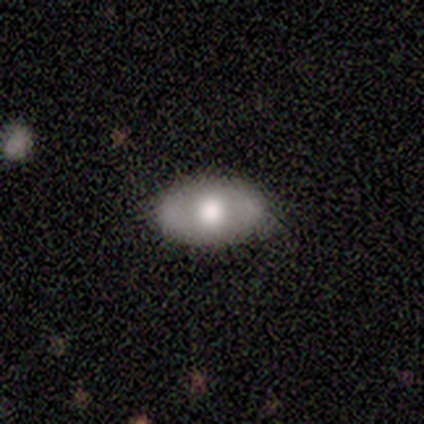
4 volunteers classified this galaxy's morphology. Q: Smooth or featured?
A: featured or disk (75%); runner-up: smooth (25%)
Q: Edge-on disk?
A: no (67%); runner-up: yes (33%)
Q: Bar?
A: no (100%)
Q: Spiral arms?
A: no (100%)
Q: Bulge size?
A: large (50%); tied with: moderate (50%)
Q: Merging?
A: none (100%)